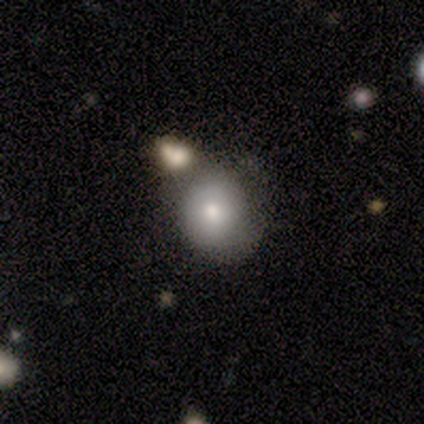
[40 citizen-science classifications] smooth_or_featured: smooth (p=0.80) [alt: featured or disk p=0.17]
how_rounded: round (p=0.75) [alt: in between p=0.25]
merging: none (p=0.51) [alt: minor disturbance p=0.26]